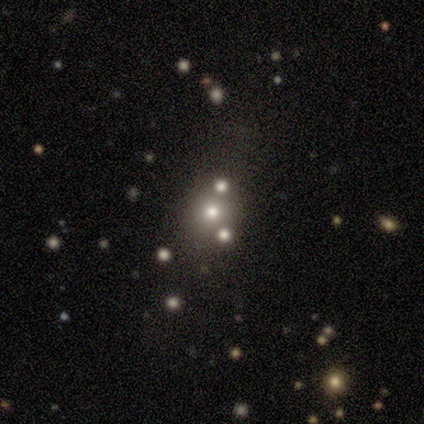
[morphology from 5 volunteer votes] smooth_or_featured: star or artifact (p=0.60) [alt: smooth p=0.40]